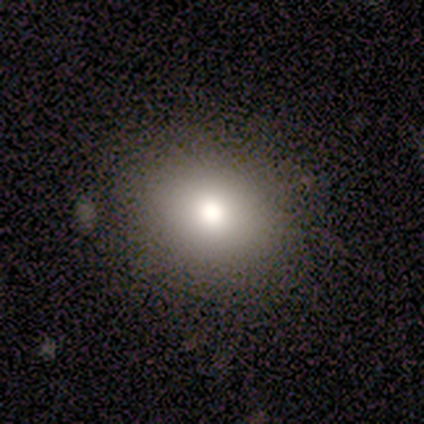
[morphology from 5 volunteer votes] Smooth or featured? 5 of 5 (100%) said smooth. How rounded? 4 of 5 (80%) said in between. Merging? 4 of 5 (80%) said none.